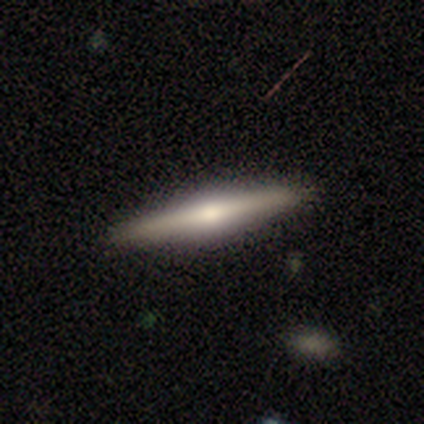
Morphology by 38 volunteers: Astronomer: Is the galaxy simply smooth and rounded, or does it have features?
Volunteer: featured or disk — 61% (runner-up: smooth, 37%).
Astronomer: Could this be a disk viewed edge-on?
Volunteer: yes — 100%.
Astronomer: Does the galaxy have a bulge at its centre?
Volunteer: rounded — 91%.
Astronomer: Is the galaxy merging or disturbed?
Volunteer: none — 92%.